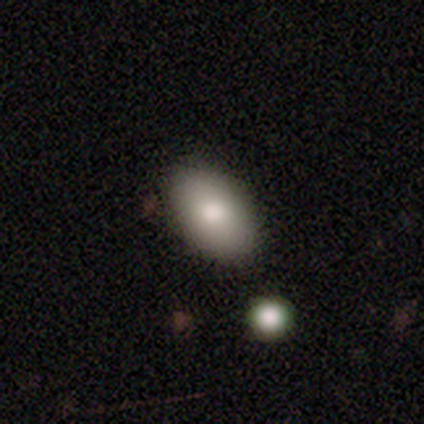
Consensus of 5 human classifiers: Smooth or featured? 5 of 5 (100%) said smooth. How rounded? 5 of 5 (100%) said in between. Merging? 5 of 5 (100%) said none.